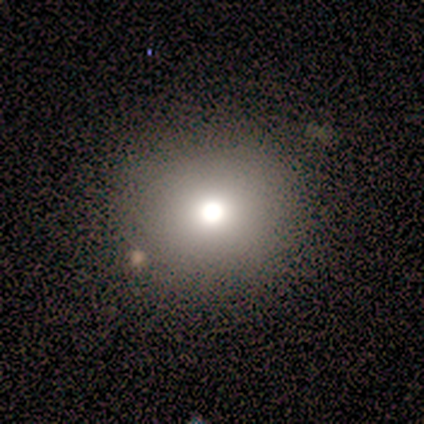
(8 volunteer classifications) A smooth galaxy with no disk features (50%) that is round (75%). Merging: none (80%).